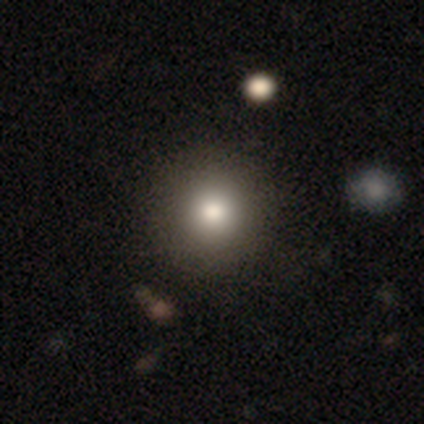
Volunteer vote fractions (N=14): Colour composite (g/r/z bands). It shows a smooth galaxy with no disk features (93%) that is round (100%). Merging: none (85%).